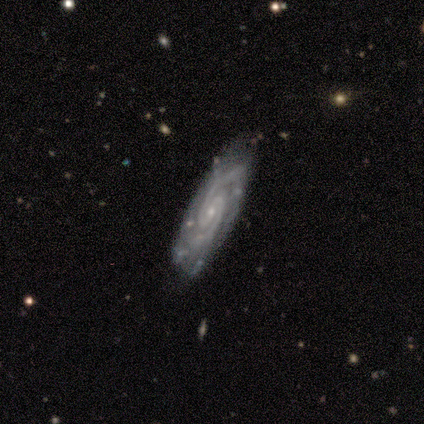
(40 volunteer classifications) A featured or disk galaxy (92%) with a weak bar (47%), 2 (81%) tight (45%) spiral arms (97%) and a small central bulge (88%).

Vote fractions:
- Smooth or featured? featured or disk: 92% / smooth: 8% / star or artifact: 0%
- Edge-on disk? no: 86% / yes: 14%
- Bar? weak: 47% / no: 38% / strong: 16%
- Spiral arms? yes: 97% / no: 3%
- Spiral winding? tight: 45% / medium: 42% / loose: 13%
- Spiral arm count? 2: 81% / 3: 10% / can't tell: 10% / 1: 0% / 4: 0% / more than 4: 0%
- Bulge size? small: 88% / moderate: 9% / none: 3% / dominant: 0% / large: 0%
- Merging? none: 70% / minor disturbance: 25% / major disturbance: 5% / merger: 0%